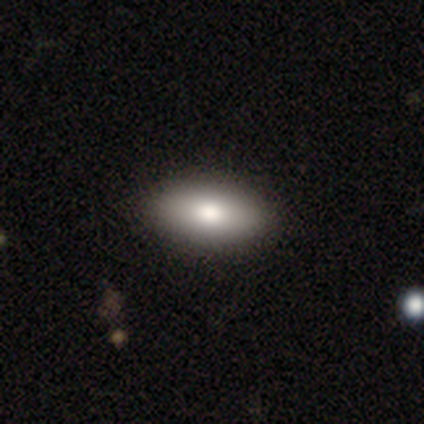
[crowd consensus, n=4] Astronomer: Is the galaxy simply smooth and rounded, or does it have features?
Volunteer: smooth — 100%.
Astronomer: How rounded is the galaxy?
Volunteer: in between — 100%.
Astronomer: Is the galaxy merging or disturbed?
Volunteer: none — 75%.